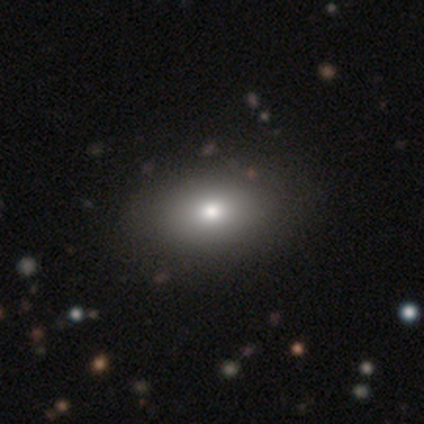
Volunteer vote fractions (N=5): Overall: smooth (100%). How rounded: in between (80%). Merging: none (100%).